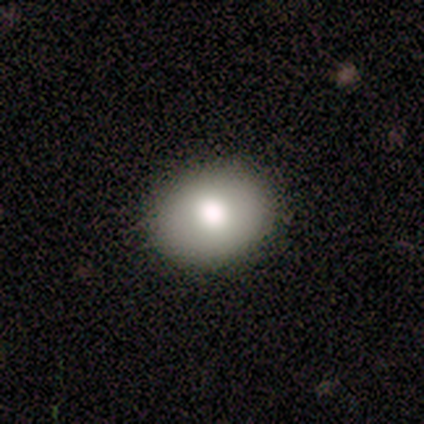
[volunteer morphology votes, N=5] smooth-or-featured: smooth: 40% (tied) | featured or disk: 40% (tied) | star or artifact: 20%
  how-rounded: round: 50% (tied) | in between: 50% (tied) | cigar-shaped: 0%
  merging: none: 75% | major disturbance: 25% | minor disturbance: 0% | merger: 0%